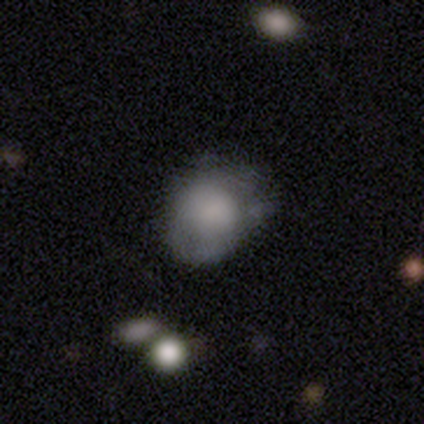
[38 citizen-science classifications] This is likely a smooth galaxy (68%). How rounded: possibly in between (58%). Merging: marginally none (39%).